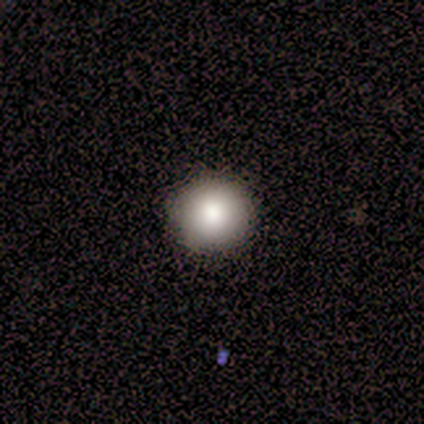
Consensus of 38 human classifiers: Volunteers were most divided on "smooth or featured": smooth: 76%, star or artifact: 13%, featured or disk: 11%. More confident: how rounded — round (97%); merging — none (94%).